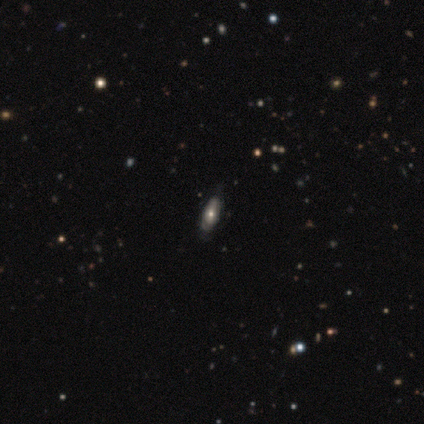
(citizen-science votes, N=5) A smooth galaxy with no disk features (40%, tied with featured or disk) that is in between round and cigar-shaped (100%).

Vote fractions:
- Smooth or featured? smooth: 40% (tied) / featured or disk: 40% (tied) / star or artifact: 20%
- How rounded? in between: 100% / round: 0% / cigar-shaped: 0%
- Merging? none: 75% / minor disturbance: 25% / major disturbance: 0% / merger: 0%